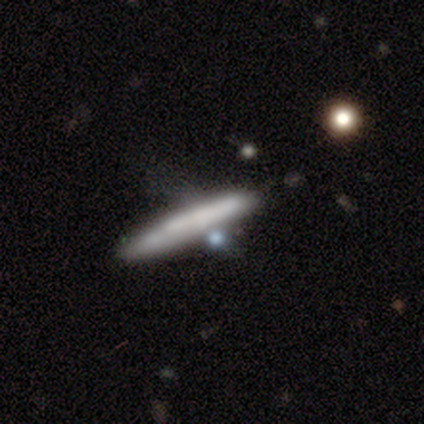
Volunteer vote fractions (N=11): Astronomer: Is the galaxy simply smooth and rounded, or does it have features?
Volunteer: featured or disk — 55% (runner-up: smooth, 36%).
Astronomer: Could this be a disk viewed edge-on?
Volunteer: yes — 83%.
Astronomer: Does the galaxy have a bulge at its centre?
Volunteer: none — 60%.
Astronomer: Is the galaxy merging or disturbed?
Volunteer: none — 40%, tied with minor disturbance at 40%.